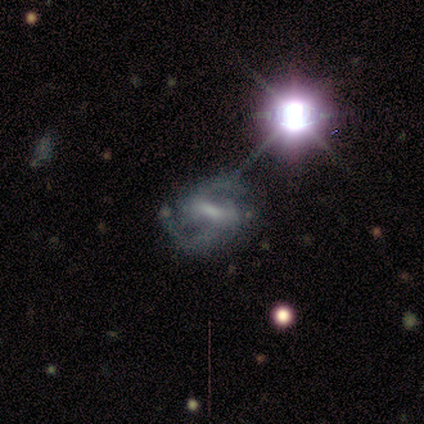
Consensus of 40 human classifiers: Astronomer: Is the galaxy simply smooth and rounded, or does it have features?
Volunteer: featured or disk — 92%.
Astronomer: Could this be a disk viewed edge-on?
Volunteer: no — 97%.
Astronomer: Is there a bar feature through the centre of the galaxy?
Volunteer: strong — 53% (runner-up: weak, 47%).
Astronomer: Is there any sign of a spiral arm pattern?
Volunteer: yes — 97%.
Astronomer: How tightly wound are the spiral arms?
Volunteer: medium — 69%.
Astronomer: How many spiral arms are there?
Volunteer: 2 — 100%.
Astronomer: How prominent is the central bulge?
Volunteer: none — 42% (runner-up: small, 36%).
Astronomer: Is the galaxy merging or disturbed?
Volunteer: none — 79%.